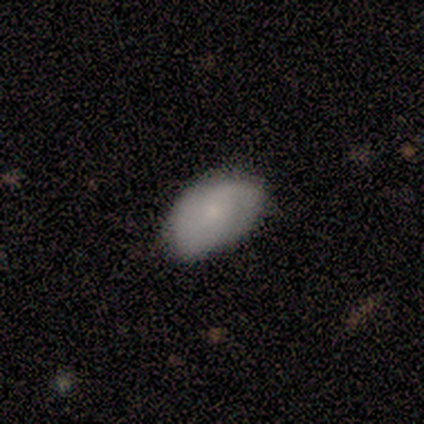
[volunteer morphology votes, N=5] smooth 40% (tied), featured or disk 40% (tied), star or artifact 20%. Down the decision tree: how rounded — in between (100%); merging — none (75%).